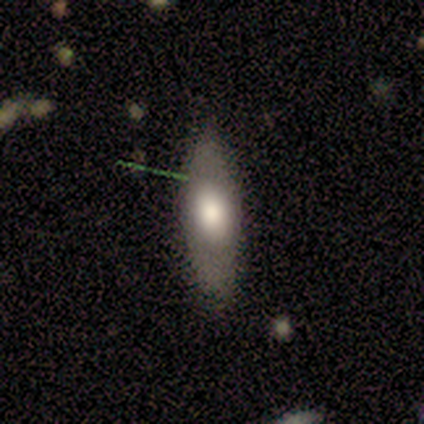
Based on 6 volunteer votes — This is clearly a smooth galaxy (83%). How rounded: clearly in between (80%). Merging: clearly none (83%).